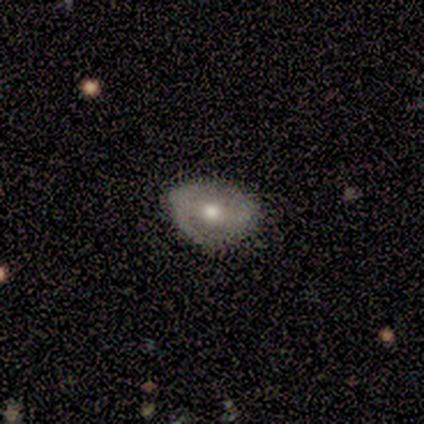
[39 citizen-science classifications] Smooth or featured? featured or disk (56%)
Edge-on disk? no (100%)
Bar? no (50%)
Spiral arms? no (59%)
Bulge size? moderate (82%)
Merging? none (78%)